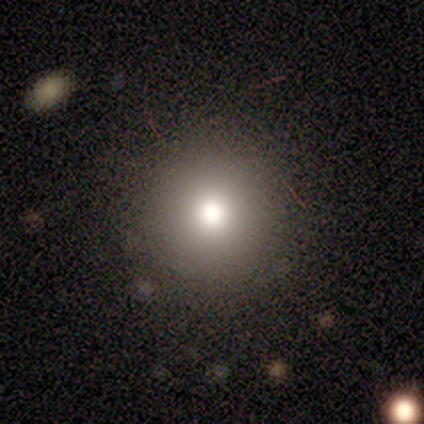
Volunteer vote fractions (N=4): Morphology: type=featured or disk (50%); edge-on=no (100%); bar=no (100%); spiral arms=no (100%); bulge=dominant (50%, tied with moderate); merging=none (100%).